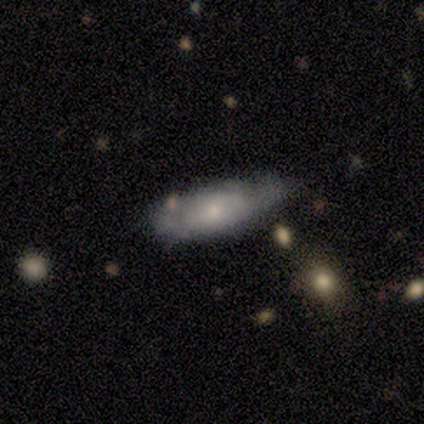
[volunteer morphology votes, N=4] Smooth or featured? 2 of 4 (50%, tied with featured or disk) said smooth. How rounded? 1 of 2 (50%, tied with cigar-shaped) said in between. Merging? 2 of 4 (50%) said none.